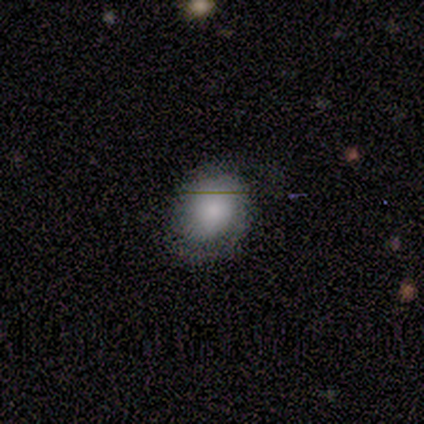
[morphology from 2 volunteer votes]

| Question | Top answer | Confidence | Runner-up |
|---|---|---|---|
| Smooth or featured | featured or disk | 100% | — |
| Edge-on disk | no | 100% | — |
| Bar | no | 100% | — |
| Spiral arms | yes | 100% | — |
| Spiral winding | tight | 50% | tied: medium (50%) |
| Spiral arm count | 1 | 50% | tied: 2 (50%) |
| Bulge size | moderate | 50% | tied: small (50%) |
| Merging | none | 100% | — |